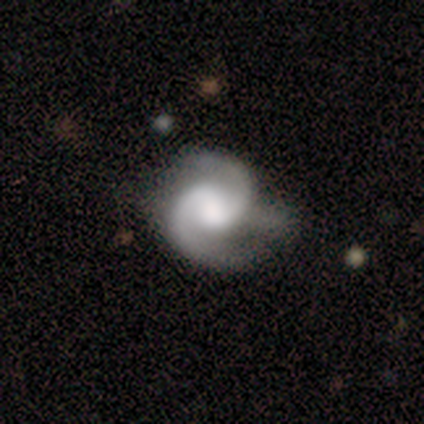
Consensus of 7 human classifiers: featured or disk 100%, smooth 0%, star or artifact 0%. Down the decision tree: edge-on disk — no (100%); bar — no (71%); spiral arms — yes (100%); spiral arm count — 2 (71%); spiral winding — medium (57%); bulge size — moderate (71%); merging — minor disturbance (57%).